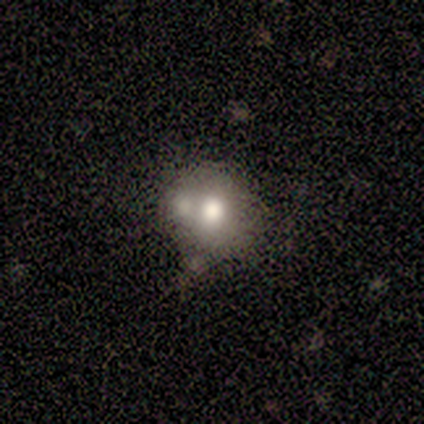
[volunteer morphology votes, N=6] Smooth or featured? 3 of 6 (50%) said smooth. How rounded? 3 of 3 (100%) said round. Merging? 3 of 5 (60%) said merger.